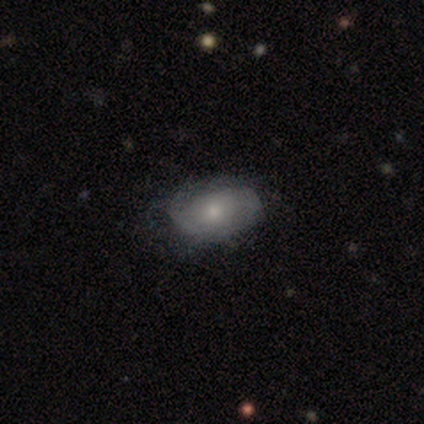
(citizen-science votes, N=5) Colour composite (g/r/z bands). It shows a featured or disk galaxy (80%) with no bar (100%), 2 (50%, tied with can't tell) medium (50%, tied with loose) spiral arms (50%, tied with no) and a small central bulge (75%). Merging: none (50%, tied with minor disturbance).